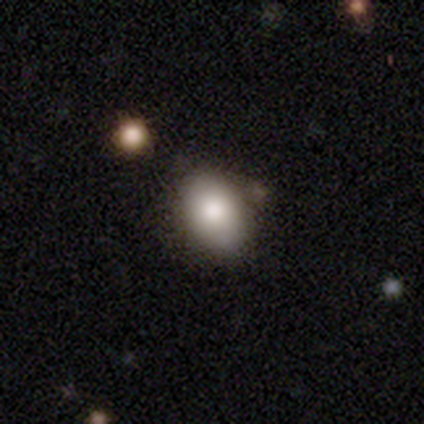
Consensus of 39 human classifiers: smooth-or-featured: smooth: 77% | star or artifact: 15% | featured or disk: 8%
  how-rounded: in between: 83% | round: 13% | cigar-shaped: 3%
  merging: none: 64% | minor disturbance: 30% | major disturbance: 6% | merger: 0%